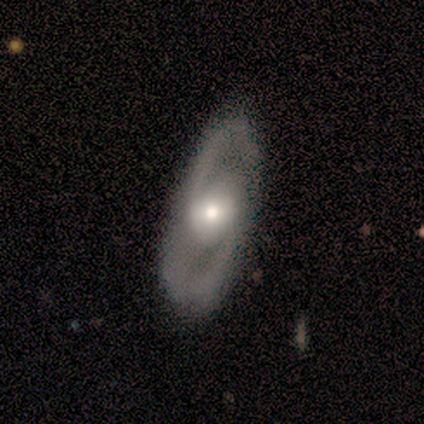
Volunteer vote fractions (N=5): Smooth or featured: featured or disk — 100%
Edge-on disk: no — 100%
Bar: no — 60% (weak — 40%)
Spiral arms: no — 80% (yes — 20%)
Bulge size: moderate — 60% (small — 40%)
Merging: none — 80% (minor disturbance — 20%)